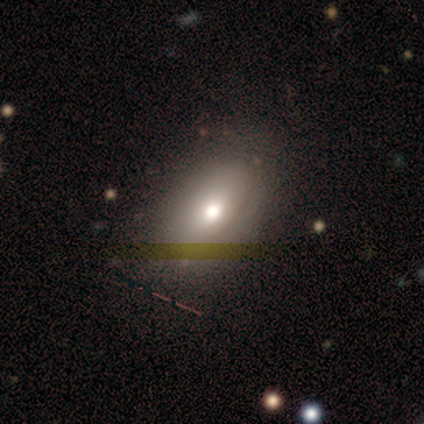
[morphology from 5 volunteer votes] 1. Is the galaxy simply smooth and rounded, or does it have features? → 40% smooth (tied), 40% featured or disk (tied), 20% star or artifact.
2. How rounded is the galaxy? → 100% in between, 0% round, 0% cigar-shaped.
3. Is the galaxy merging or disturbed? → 75% none, 25% major disturbance, 0% minor disturbance, 0% merger.